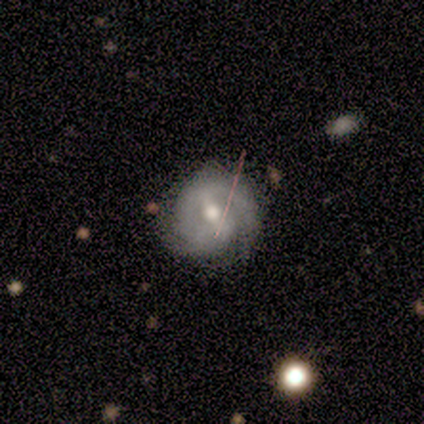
Morphology: type=featured or disk (90%); edge-on=no (97%); bar=weak (41%); spiral arms=yes (91%); winding=tight (48%); arm count=2 (81%); bulge=moderate (71%); merging=none (68%).